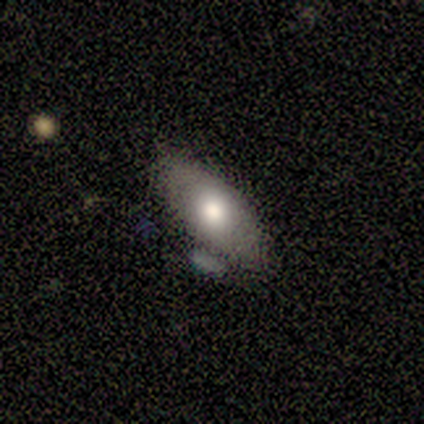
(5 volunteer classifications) A smooth galaxy with no disk features (80%) that is in between round and cigar-shaped (100%). Merging: none (75%).